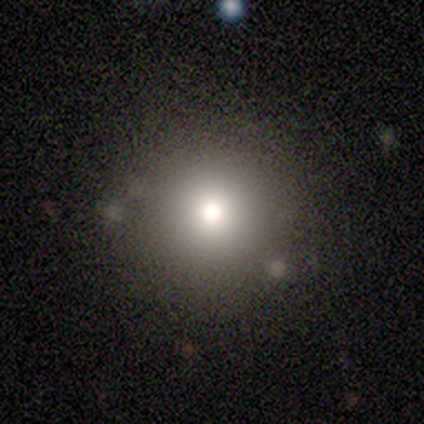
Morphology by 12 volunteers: Volunteers were most divided on "how rounded": round: 91%, in between: 9%, cigar-shaped: 0%. More confident: smooth or featured — smooth (92%); merging — none (92%).